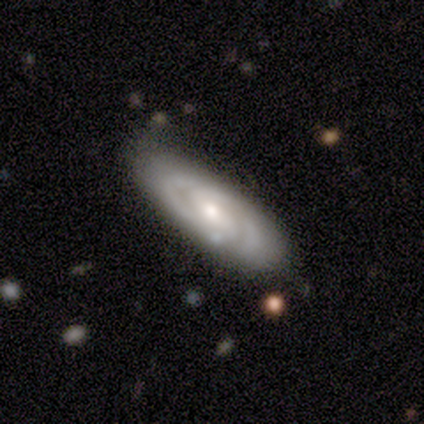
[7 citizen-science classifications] Q: Smooth or featured?
A: featured or disk (86%); runner-up: smooth (14%)
Q: Edge-on disk?
A: no (100%)
Q: Bar?
A: no (50%); runner-up: weak (33%)
Q: Spiral arms?
A: yes (100%)
Q: Spiral winding?
A: tight (83%); runner-up: medium (17%)
Q: Spiral arm count?
A: 2 (67%); runner-up: 3 (17%)
Q: Bulge size?
A: moderate (83%); runner-up: small (17%)
Q: Merging?
A: none (86%); runner-up: minor disturbance (14%)